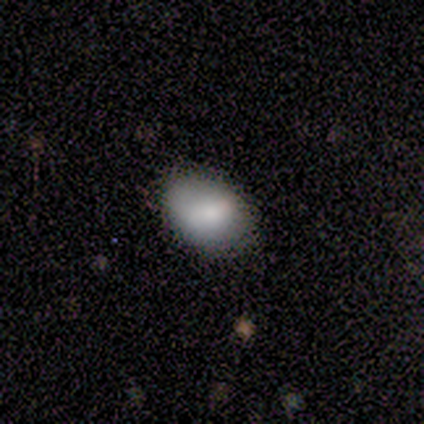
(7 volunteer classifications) This appears to be a smooth galaxy with no disk features (71%) that is in between round and cigar-shaped (80%). Merging: none (100%).